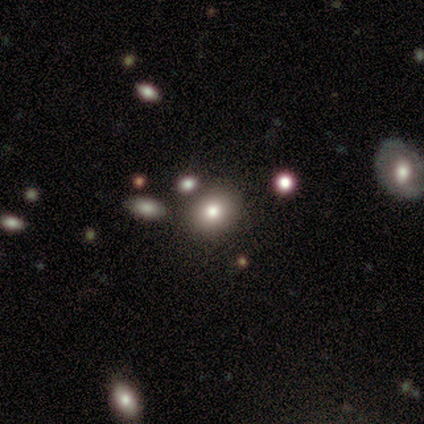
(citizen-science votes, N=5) Smooth or featured?
  - smooth: 60% *
  - featured or disk: 20%
  - star or artifact: 20%
How rounded?
  - round: 67% *
  - in between: 33%
  - cigar-shaped: 0%
Merging?
  - none: 75% *
  - merger: 25%
  - minor disturbance: 0%
  - major disturbance: 0%